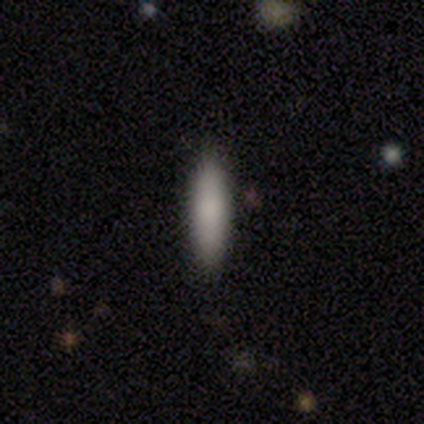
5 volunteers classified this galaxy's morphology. Smooth or featured?
  - smooth: 80% *
  - star or artifact: 20%
  - featured or disk: 0%
How rounded?
  - cigar-shaped: 75% *
  - in between: 25%
  - round: 0%
Merging?
  - none: 100% *
  - minor disturbance: 0%
  - major disturbance: 0%
  - merger: 0%